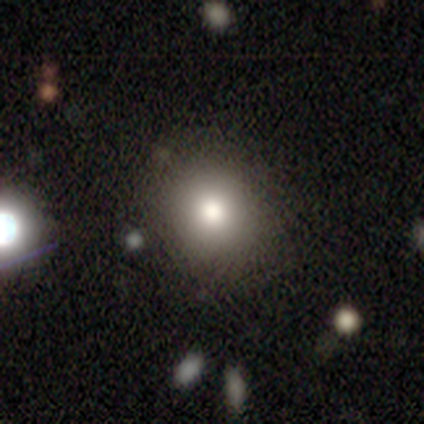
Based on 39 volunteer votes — Smooth or featured? smooth (72%)
How rounded? round (93%)
Merging? none (76%)